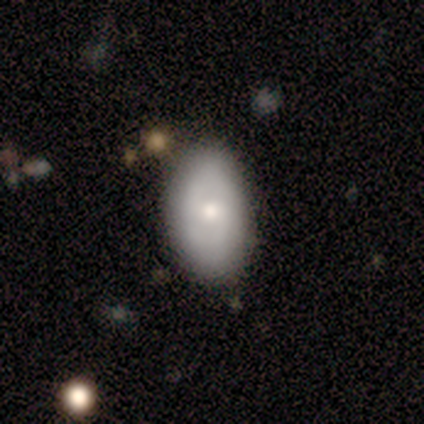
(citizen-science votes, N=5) smooth 60%, featured or disk 40%, star or artifact 0%. Down the decision tree: how rounded — in between (100%); merging — none (100%).